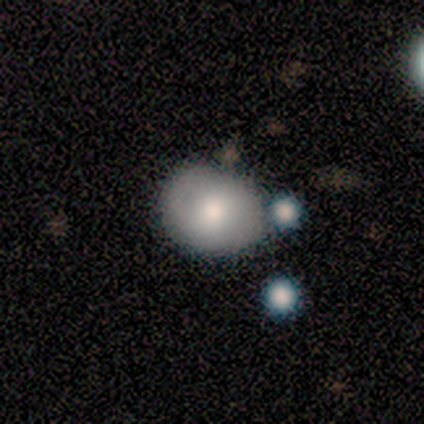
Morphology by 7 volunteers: Overall: smooth (71%). How rounded: in between (60%; round 40%). Merging: minor disturbance (57%; none 43%).